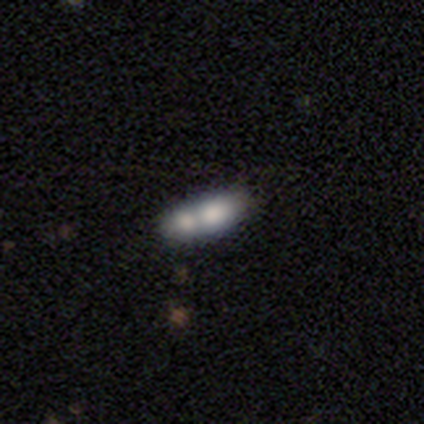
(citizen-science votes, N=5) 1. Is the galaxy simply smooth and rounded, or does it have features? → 60% smooth, 40% featured or disk, 0% star or artifact.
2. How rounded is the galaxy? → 67% in between, 33% cigar-shaped, 0% round.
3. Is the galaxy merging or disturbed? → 40% none (tied), 40% merger (tied), 20% minor disturbance, 0% major disturbance.